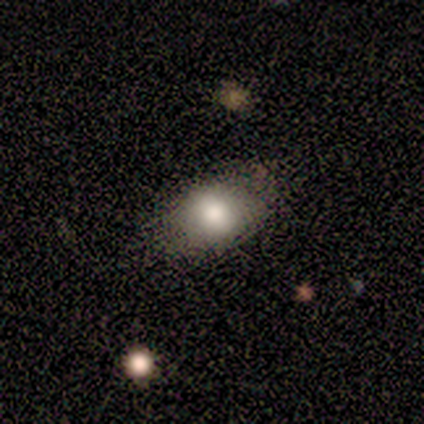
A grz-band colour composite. It shows a smooth galaxy with no disk features (100%) that is in between round and cigar-shaped (100%). Merging: none (75%).